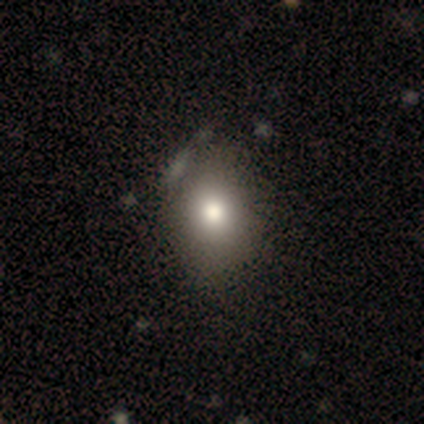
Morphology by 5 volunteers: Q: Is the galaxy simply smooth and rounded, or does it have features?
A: smooth — 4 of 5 (80%).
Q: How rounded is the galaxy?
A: in between — 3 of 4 (75%).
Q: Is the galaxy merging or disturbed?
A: minor disturbance — 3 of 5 (60%).